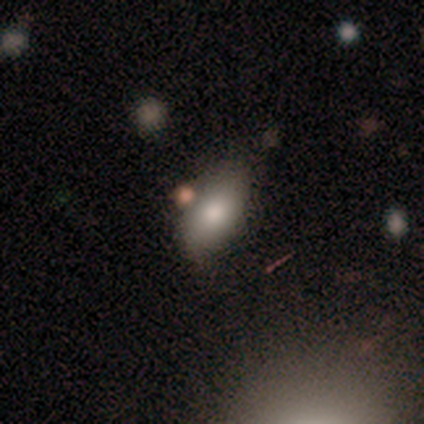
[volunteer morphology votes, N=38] Smooth or featured? 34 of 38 (89%) said smooth. How rounded? 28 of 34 (82%) said in between. Merging? 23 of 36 (64%) said none.